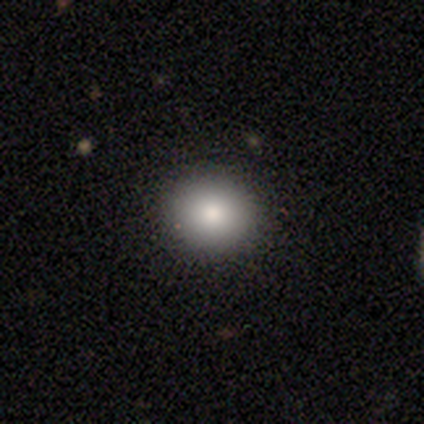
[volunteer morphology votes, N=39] Smooth or featured: smooth — 82% (featured or disk — 15%)
How rounded: round — 97% (in between — 3%)
Merging: none — 92% (minor disturbance — 5%)